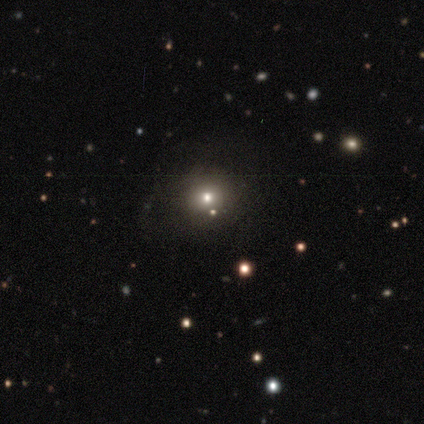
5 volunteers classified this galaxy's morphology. Smooth or featured: star or artifact — 60% (smooth — 40%)